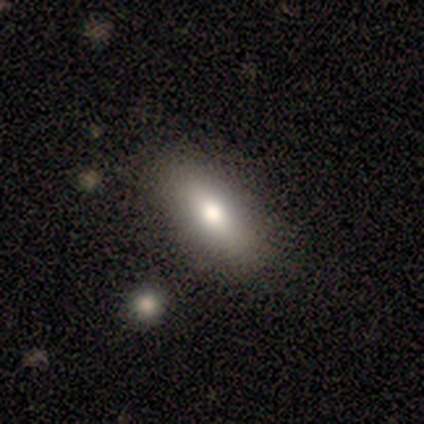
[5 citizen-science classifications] Morphology: type=smooth (60%); roundness=round (33%, tied with in between and cigar-shaped); merging=none (80%).